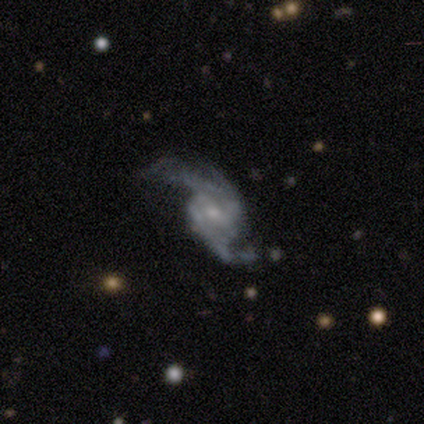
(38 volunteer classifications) Overall: featured or disk (87%). Edge-on disk: no (94%). Bar: no (52%; weak 42%). Spiral arms: yes (97%). Spiral arm count: 2 (77%). Spiral winding: loose (67%). Bulge size: small (48%; moderate 39%). Merging: none (40%, tied with major disturbance).